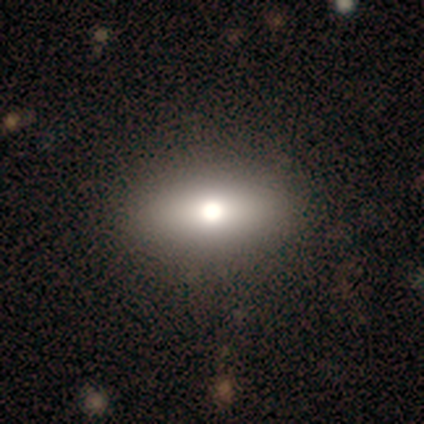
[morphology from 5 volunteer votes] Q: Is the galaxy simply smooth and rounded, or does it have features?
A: smooth — 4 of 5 (80%).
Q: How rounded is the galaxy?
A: in between — 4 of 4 (100%).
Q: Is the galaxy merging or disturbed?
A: none — 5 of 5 (100%).